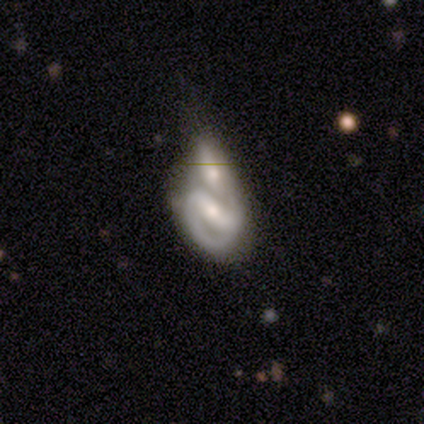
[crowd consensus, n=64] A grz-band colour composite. It shows a featured or disk galaxy (81%) with a strong bar (80%), 2 (84%) tight (49%) spiral arms (86%) and a moderate central bulge (56%). Merging: merger (75%).